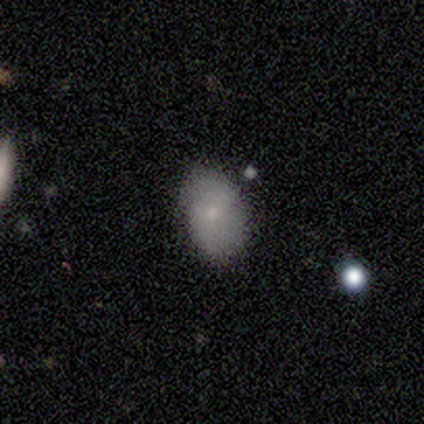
smooth_or_featured: smooth (p=0.66) [alt: featured or disk p=0.29]
how_rounded: in between (p=0.88) [alt: round p=0.12]
merging: none (p=0.69) [alt: minor disturbance p=0.28]